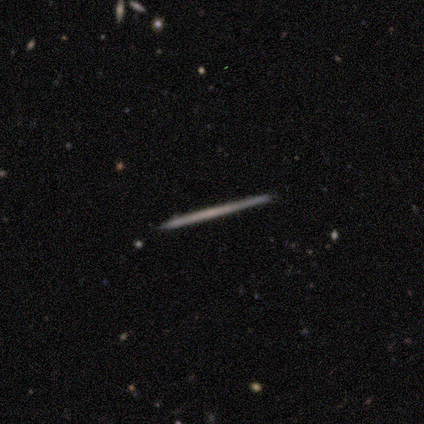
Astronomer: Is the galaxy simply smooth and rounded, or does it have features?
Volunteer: featured or disk — 60% (runner-up: smooth, 40%).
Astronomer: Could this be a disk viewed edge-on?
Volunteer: yes — 100%.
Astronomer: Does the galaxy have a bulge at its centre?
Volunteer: none — 100%.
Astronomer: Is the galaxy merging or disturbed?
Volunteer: none — 100%.